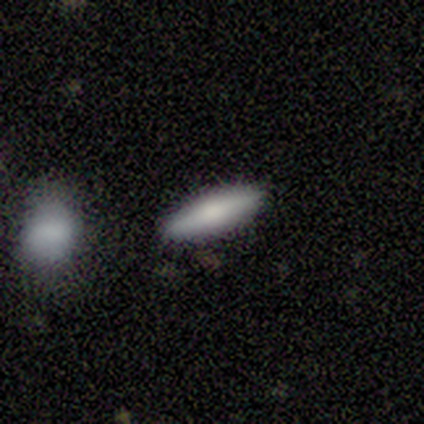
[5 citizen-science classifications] smooth 60%, featured or disk 40%, star or artifact 0%. Down the decision tree: how rounded — in between (67%); merging — none (80%).